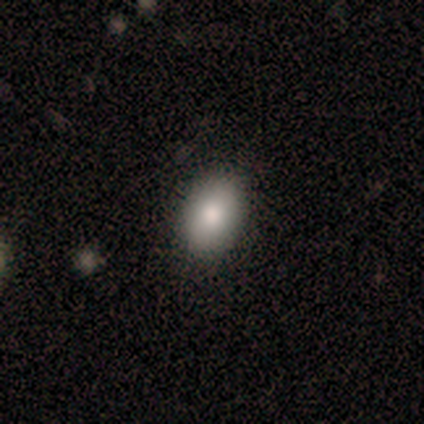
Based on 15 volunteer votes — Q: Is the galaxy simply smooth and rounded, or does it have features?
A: smooth — 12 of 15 (80%).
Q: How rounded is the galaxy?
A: in between — 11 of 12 (92%).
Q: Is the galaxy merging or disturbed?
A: none — 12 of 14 (86%).